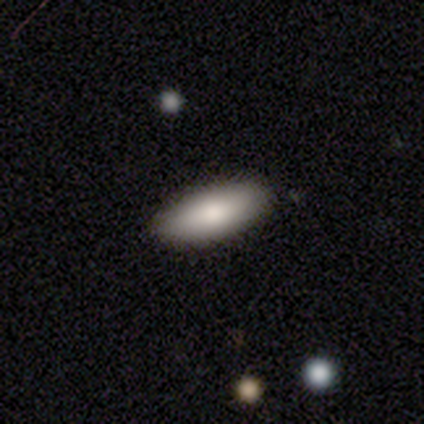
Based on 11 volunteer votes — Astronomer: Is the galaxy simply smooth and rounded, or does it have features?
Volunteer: smooth — 91%.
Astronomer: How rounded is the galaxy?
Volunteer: in between — 70%.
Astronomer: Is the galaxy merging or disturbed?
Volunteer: none — 100%.